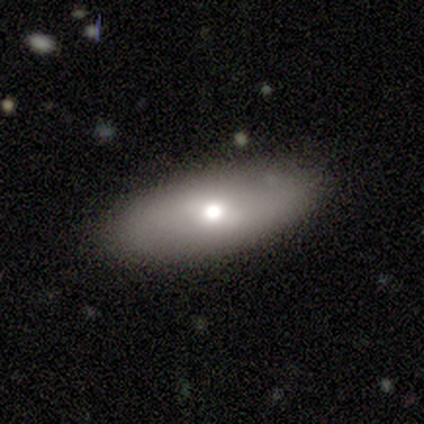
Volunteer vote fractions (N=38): smooth-or-featured: smooth: 55% | featured or disk: 29% | star or artifact: 16%
  how-rounded: in between: 71% | cigar-shaped: 29% | round: 0%
  merging: none: 84% | minor disturbance: 12% | major disturbance: 3% | merger: 0%